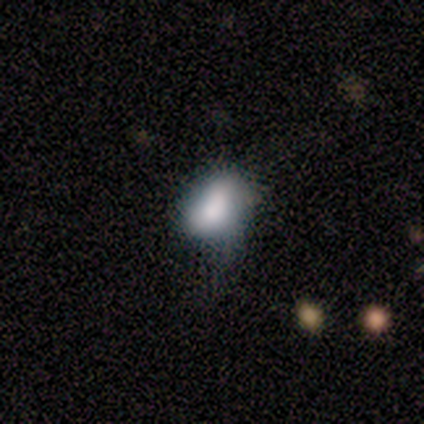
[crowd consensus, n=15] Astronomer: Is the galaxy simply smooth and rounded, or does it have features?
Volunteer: smooth — 100%.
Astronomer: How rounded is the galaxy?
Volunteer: in between — 80%.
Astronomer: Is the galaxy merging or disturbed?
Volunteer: minor disturbance — 53%.